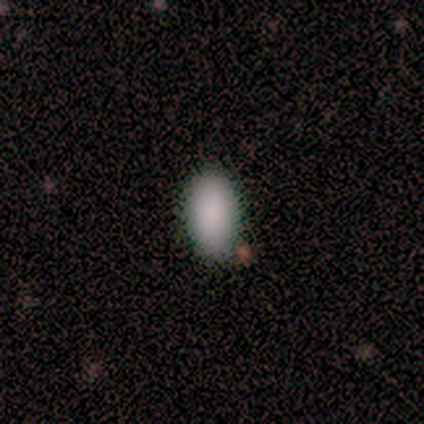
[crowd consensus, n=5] Smooth or featured: smooth — 100%
How rounded: in between — 80% (cigar-shaped — 20%)
Merging: none — 100%